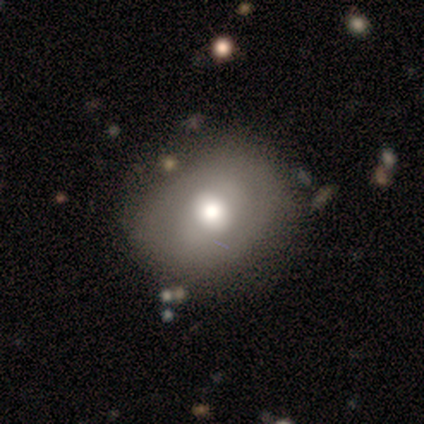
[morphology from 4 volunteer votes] This appears to be a smooth galaxy with no disk features (75%) that is in between round and cigar-shaped (67%). Merging: none (75%).